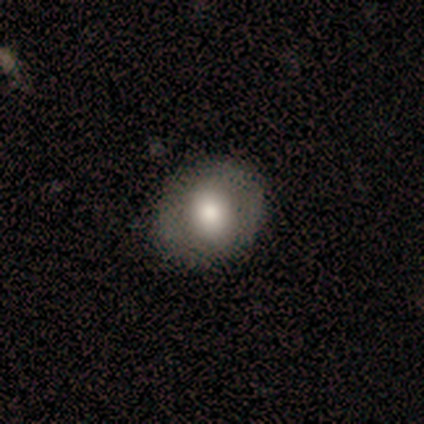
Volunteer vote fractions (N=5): This appears to be a smooth galaxy with no disk features (60%) that is round (100%). Merging: none (100%).